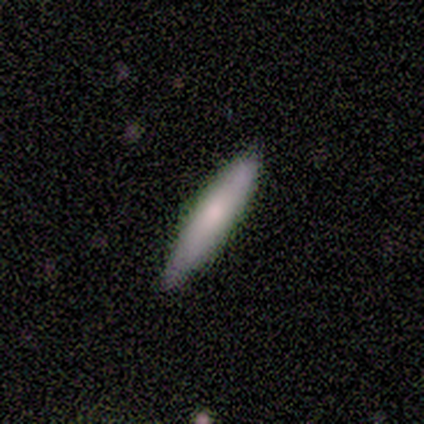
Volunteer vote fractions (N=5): This is clearly a smooth galaxy (80%). How rounded: likely cigar-shaped (75%). Merging: clearly none (80%).